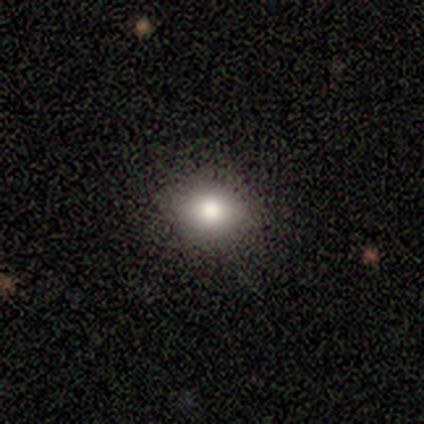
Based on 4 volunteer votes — Morphology: type=smooth (75%); roundness=in between (67%); merging=none (100%).